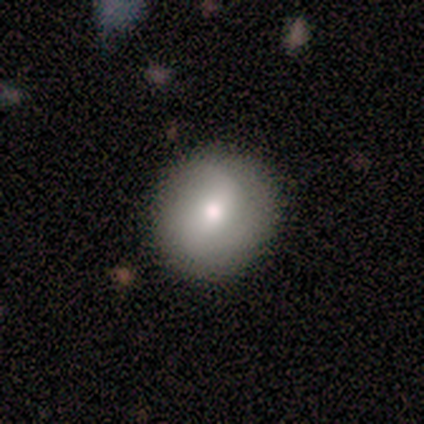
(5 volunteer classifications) smooth_or_featured: smooth (p=0.80) [alt: star or artifact p=0.20]
how_rounded: round (p=1.00)
merging: none (p=0.75) [alt: minor disturbance p=0.25]